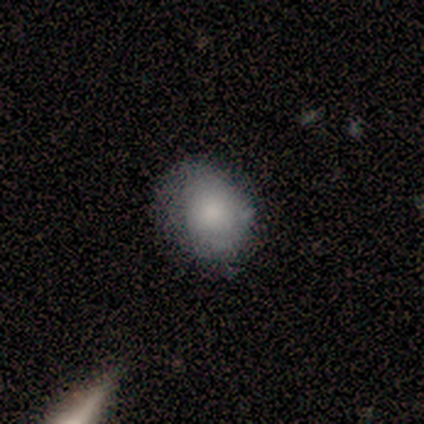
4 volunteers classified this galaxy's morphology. Smooth or featured? smooth (75%)
How rounded? round (100%)
Merging? none (50%)